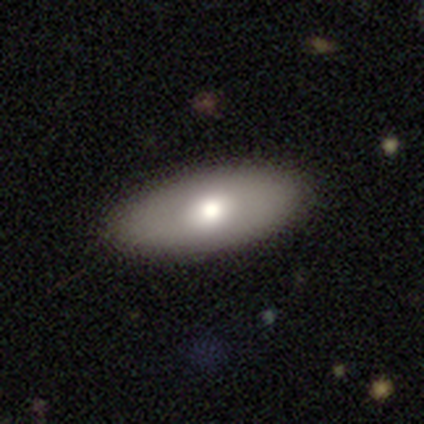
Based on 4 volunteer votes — smooth 100%, featured or disk 0%, star or artifact 0%. Down the decision tree: how rounded — in between (75%); merging — none (100%).